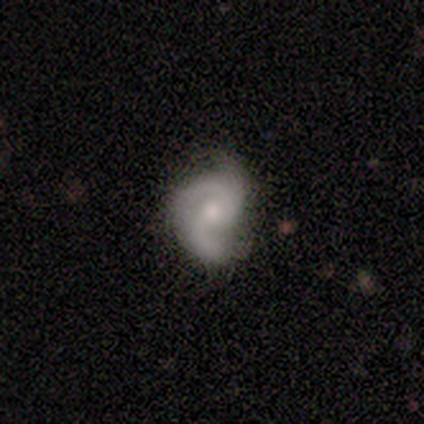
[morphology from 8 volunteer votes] Q: Smooth or featured?
A: featured or disk (62%); runner-up: smooth (38%)
Q: Edge-on disk?
A: no (100%)
Q: Bar?
A: no (100%)
Q: Spiral arms?
A: yes (80%); runner-up: no (20%)
Q: Spiral winding?
A: tight (50%); tied with: medium (50%)
Q: Spiral arm count?
A: 2 (75%); runner-up: 3 (25%)
Q: Bulge size?
A: moderate (100%)
Q: Merging?
A: none (38%); tied with: major disturbance (38%)